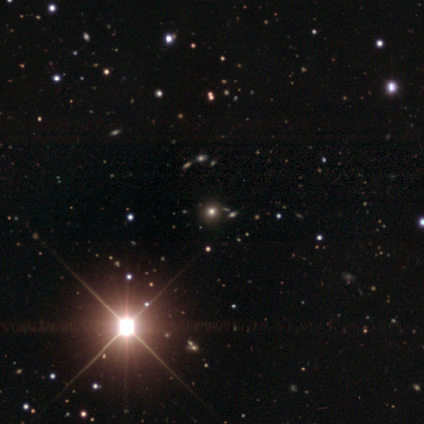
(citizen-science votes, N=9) This appears to be a star or artifact, not a galaxy (67%).